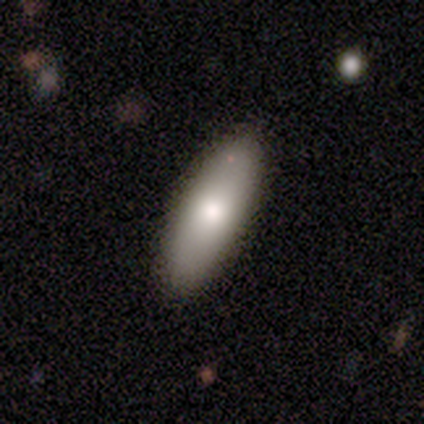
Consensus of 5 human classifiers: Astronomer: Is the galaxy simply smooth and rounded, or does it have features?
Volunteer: smooth — 60% (runner-up: featured or disk, 40%).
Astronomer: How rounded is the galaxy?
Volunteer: in between — 100%.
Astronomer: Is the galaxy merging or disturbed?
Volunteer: none — 80%.